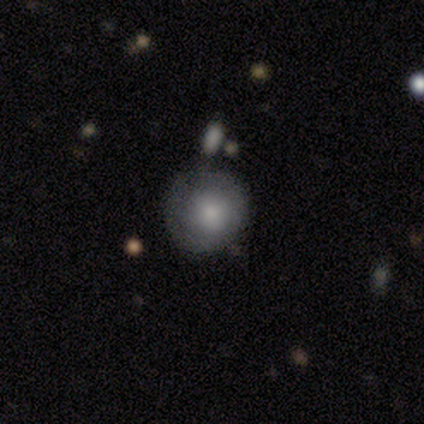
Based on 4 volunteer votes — This appears to be a smooth galaxy with no disk features (100%) that is round (100%). Merging: none (50%, tied with minor disturbance).